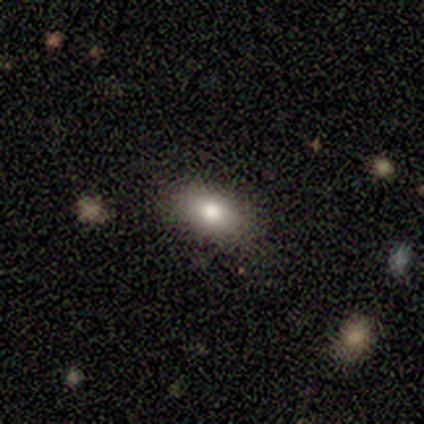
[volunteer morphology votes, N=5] Smooth or featured? smooth (100%)
How rounded? in between (100%)
Merging? none (100%)